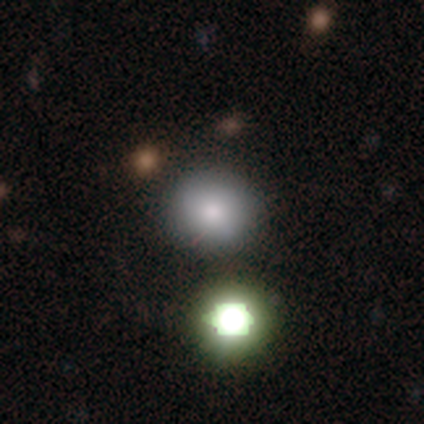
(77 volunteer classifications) Volunteers were most divided on "merging": none: 47%, merger: 9%, minor disturbance: 6%, major disturbance: 0%. More confident: how rounded — round (90%); smooth or featured — smooth (78%).